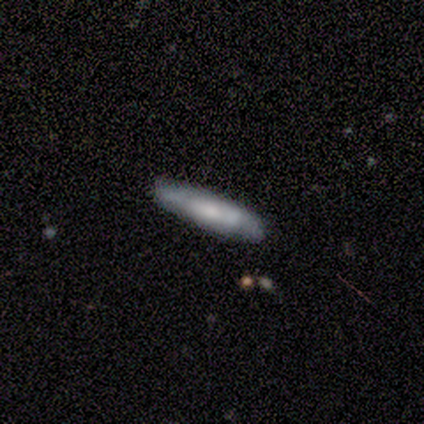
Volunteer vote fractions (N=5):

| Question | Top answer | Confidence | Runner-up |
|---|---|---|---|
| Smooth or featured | featured or disk | 60% | smooth (40%) |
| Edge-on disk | yes | 100% | — |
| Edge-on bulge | rounded | 100% | — |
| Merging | none | 80% | minor disturbance (20%) |